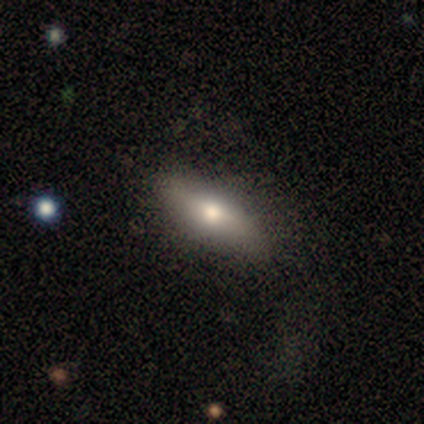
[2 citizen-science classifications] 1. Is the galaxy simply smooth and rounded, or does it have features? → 50% smooth (tied), 50% featured or disk (tied), 0% star or artifact.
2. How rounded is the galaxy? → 100% cigar-shaped, 0% round, 0% in between.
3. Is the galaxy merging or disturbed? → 100% none, 0% minor disturbance, 0% major disturbance, 0% merger.